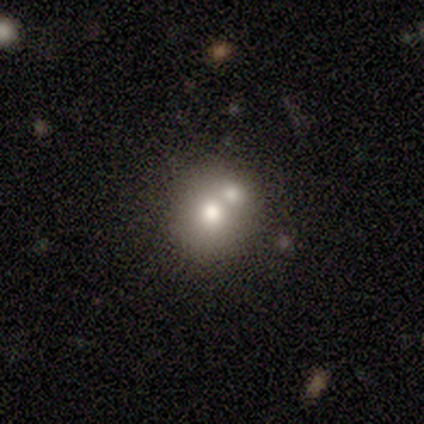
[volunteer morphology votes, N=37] smooth 68%, featured or disk 22%, star or artifact 11%. Down the decision tree: how rounded — round (88%); merging — merger (48%).